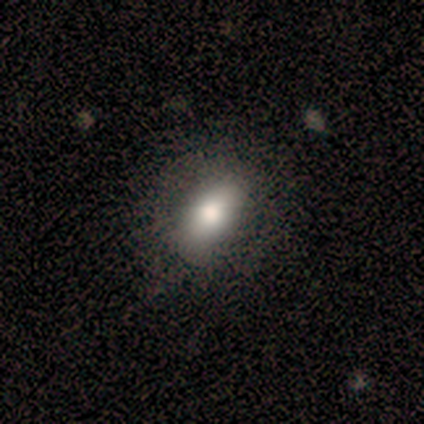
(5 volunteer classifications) Smooth or featured? smooth (100%)
How rounded? in between (80%)
Merging? none (80%)